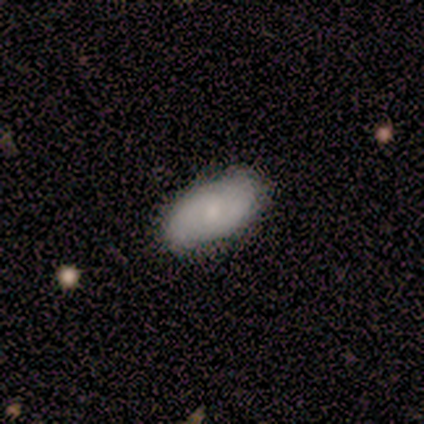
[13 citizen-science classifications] A smooth galaxy with no disk features (69%) that is in between round and cigar-shaped (100%).

Vote fractions:
- Smooth or featured? smooth: 69% / featured or disk: 31% / star or artifact: 0%
- How rounded? in between: 100% / round: 0% / cigar-shaped: 0%
- Merging? none: 77% / minor disturbance: 23% / major disturbance: 0% / merger: 0%